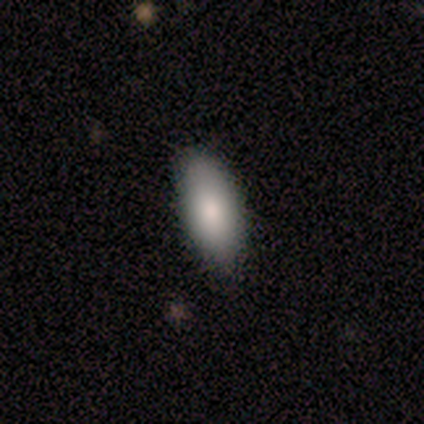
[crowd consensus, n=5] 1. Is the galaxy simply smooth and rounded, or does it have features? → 60% smooth, 40% featured or disk, 0% star or artifact.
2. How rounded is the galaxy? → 100% in between, 0% round, 0% cigar-shaped.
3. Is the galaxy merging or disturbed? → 100% none, 0% minor disturbance, 0% major disturbance, 0% merger.